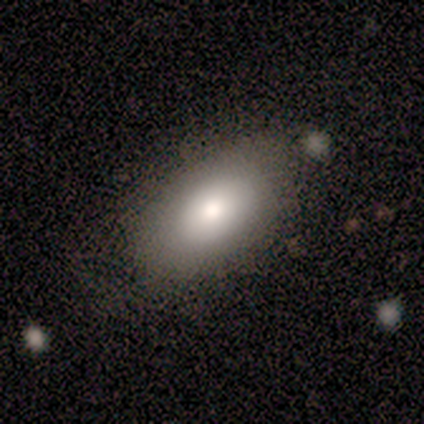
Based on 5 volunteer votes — This appears to be a smooth galaxy with no disk features (100%) that is in between round and cigar-shaped (80%). Merging: none (100%).